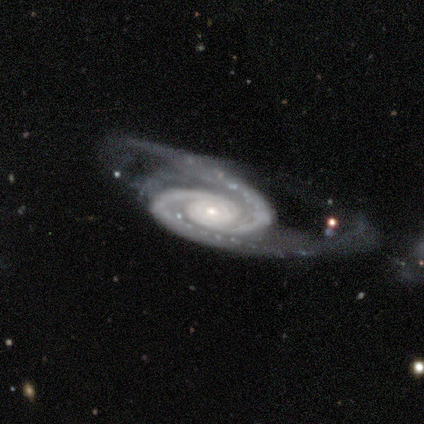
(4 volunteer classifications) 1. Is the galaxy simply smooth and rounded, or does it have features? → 100% featured or disk, 0% smooth, 0% star or artifact.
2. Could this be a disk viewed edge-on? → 100% no, 0% yes.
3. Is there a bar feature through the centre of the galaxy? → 50% no, 25% strong, 25% weak.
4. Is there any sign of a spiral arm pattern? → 100% yes, 0% no.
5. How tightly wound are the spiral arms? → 50% tight (tied), 50% medium (tied), 0% loose.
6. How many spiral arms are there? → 100% 2, 0% 1, 0% 3, 0% 4, 0% more than 4, 0% can't tell.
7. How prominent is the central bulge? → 50% large, 25% moderate, 25% small, 0% dominant, 0% none.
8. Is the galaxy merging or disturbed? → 75% minor disturbance, 25% major disturbance, 0% none, 0% merger.